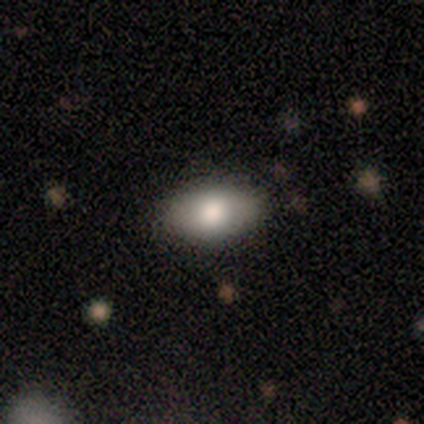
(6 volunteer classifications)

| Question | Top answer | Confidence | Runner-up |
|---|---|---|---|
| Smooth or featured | smooth | 67% | featured or disk (17%) |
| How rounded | in between | 100% | — |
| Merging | none | 80% | minor disturbance (20%) |